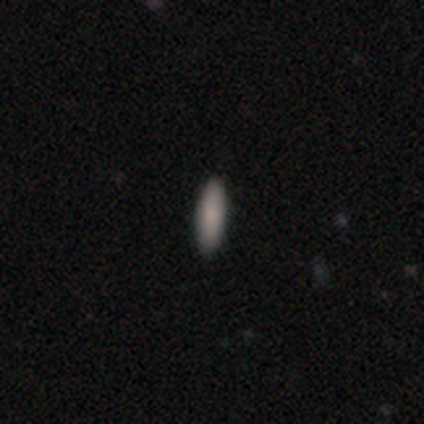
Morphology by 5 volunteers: This is clearly a smooth galaxy (80%). How rounded: possibly in between (50%, tied with cigar-shaped). Merging: clearly none (100%).